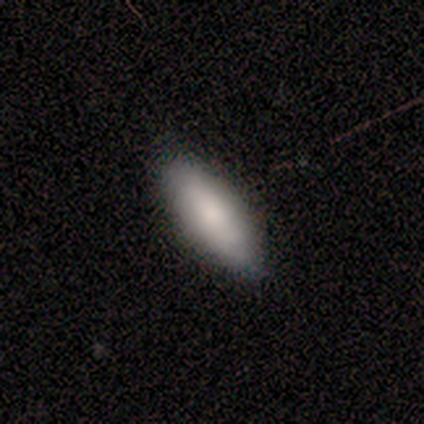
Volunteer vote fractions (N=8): Q: Smooth or featured?
A: smooth (100%)
Q: How rounded?
A: in between (62%); runner-up: cigar-shaped (38%)
Q: Merging?
A: none (100%)